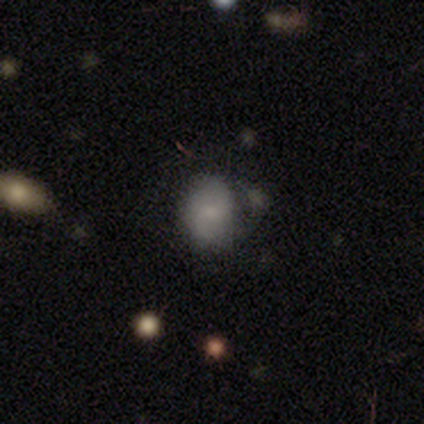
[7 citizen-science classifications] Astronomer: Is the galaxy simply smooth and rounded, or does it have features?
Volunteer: smooth — 71%.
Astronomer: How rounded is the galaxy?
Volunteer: in between — 60% (runner-up: round, 40%).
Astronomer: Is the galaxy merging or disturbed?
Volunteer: none — 29%, tied with minor disturbance and major disturbance at 29%.